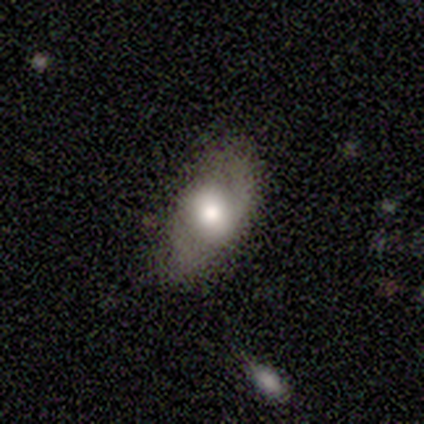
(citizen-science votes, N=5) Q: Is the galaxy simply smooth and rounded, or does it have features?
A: smooth — 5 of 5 (100%).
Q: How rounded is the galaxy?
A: in between — 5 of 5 (100%).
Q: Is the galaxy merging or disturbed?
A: none — 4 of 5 (80%).